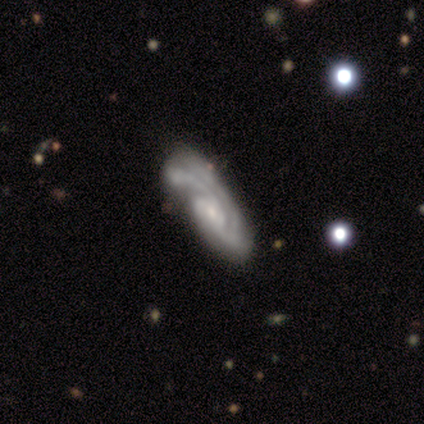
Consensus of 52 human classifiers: Overall: featured or disk (87%). Edge-on disk: no (93%). Bar: no (71%). Spiral arms: yes (90%). Spiral arm count: 2 (58%). Spiral winding: medium (47%; tight 45%). Bulge size: small (76%). Merging: none (44%; minor disturbance 22%).